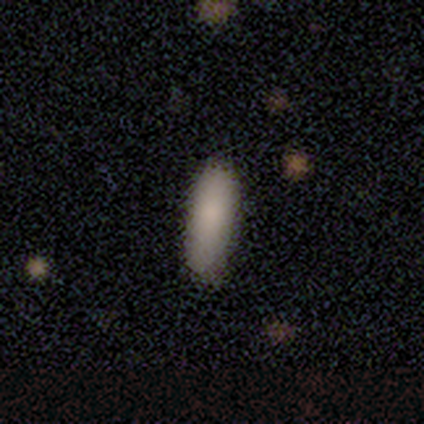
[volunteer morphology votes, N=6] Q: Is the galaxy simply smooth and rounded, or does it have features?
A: smooth — 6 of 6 (100%).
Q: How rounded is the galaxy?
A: in between — 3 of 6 (50%, tied with cigar-shaped).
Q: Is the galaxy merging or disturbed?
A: none — 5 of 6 (83%).